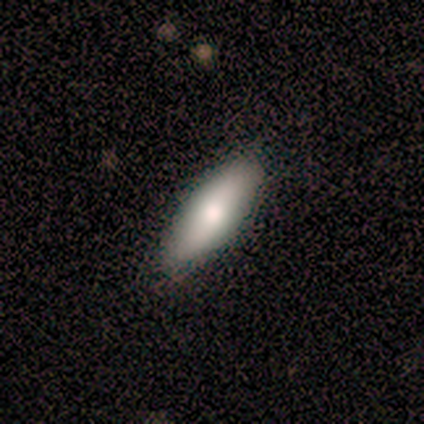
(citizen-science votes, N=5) This is clearly a smooth galaxy (80%). How rounded: possibly in between (50%, tied with cigar-shaped). Merging: clearly none (100%).